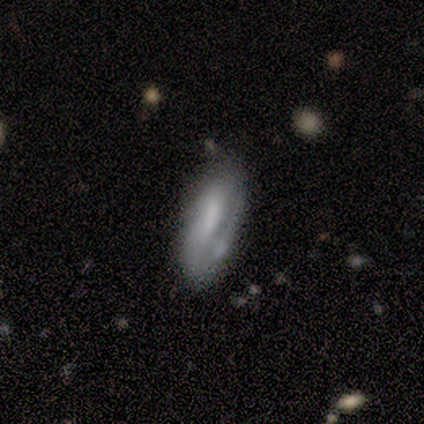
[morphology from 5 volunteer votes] smooth 60%, featured or disk 20%, star or artifact 20%. Down the decision tree: how rounded — in between (100%); merging — minor disturbance (50%).